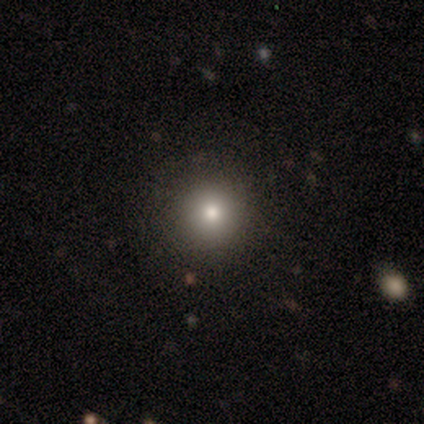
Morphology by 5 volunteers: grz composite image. It shows a smooth galaxy with no disk features (60%) that is round (100%). Merging: none (100%).